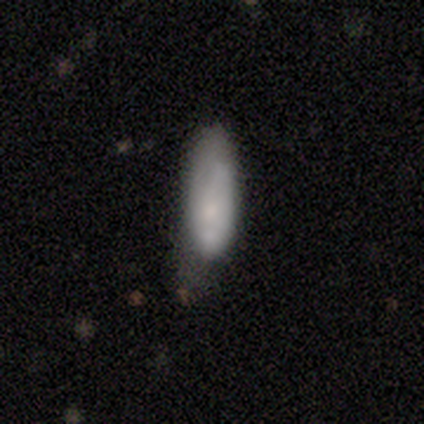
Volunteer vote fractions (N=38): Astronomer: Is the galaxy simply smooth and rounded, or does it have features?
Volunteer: smooth — 76%.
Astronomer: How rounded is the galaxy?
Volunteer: cigar-shaped — 55% (runner-up: in between, 45%).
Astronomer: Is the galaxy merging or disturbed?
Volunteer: minor disturbance — 51% (runner-up: none, 29%).